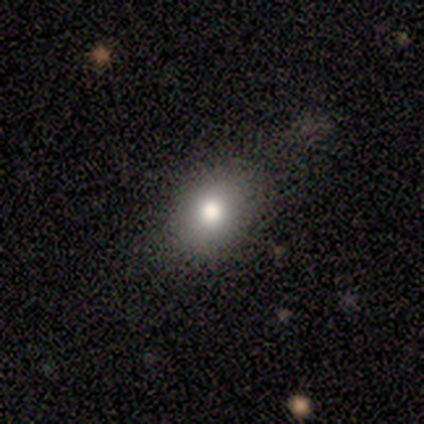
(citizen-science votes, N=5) Smooth or featured? smooth (80%)
How rounded? round (50%, tied with in between)
Merging? none (75%)